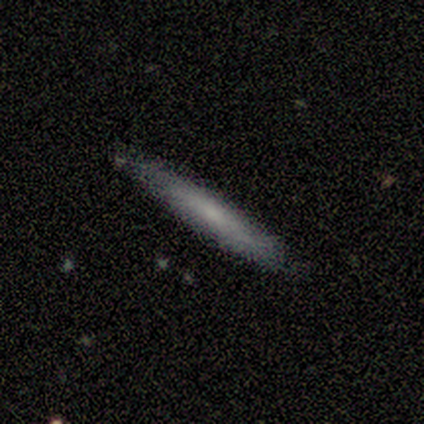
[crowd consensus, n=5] Smooth or featured? featured or disk (60%)
Edge-on disk? yes (100%)
Edge-on bulge? boxy (33%, tied with none and rounded)
Merging? none (100%)